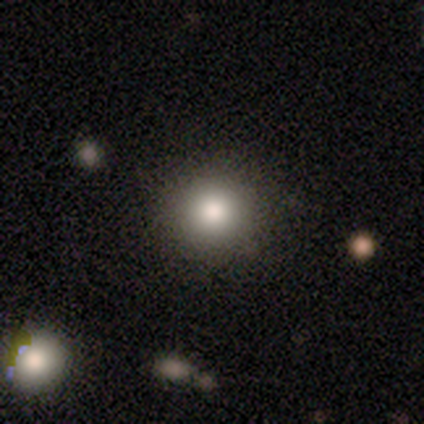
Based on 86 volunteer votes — Smooth or featured? smooth (78%)
How rounded? round (88%)
Merging? none (80%)